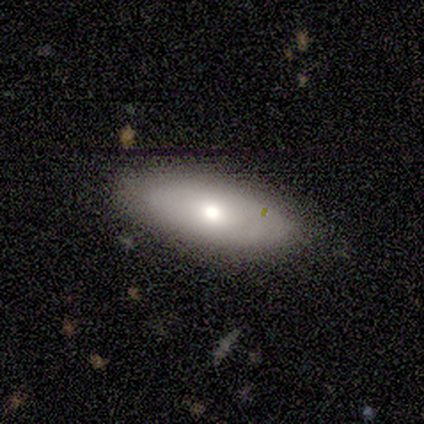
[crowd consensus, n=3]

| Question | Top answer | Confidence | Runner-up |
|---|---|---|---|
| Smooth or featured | smooth | 100% | — |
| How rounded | in between | 100% | — |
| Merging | none | 100% | — |